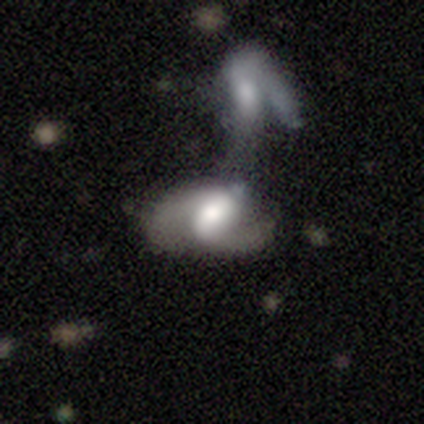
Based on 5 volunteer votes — A featured or disk galaxy (80%) with a weak bar (50%), 2 (100%) loose (100%) spiral arms (75%) and a dominant central bulge (25%, tied with large, moderate and small).

Vote fractions:
- Smooth or featured? featured or disk: 80% / smooth: 20% / star or artifact: 0%
- Edge-on disk? no: 100% / yes: 0%
- Bar? weak: 50% / strong: 25% / no: 25%
- Spiral arms? yes: 75% / no: 25%
- Spiral winding? loose: 100% / tight: 0% / medium: 0%
- Spiral arm count? 2: 100% / 1: 0% / 3: 0% / 4: 0% / more than 4: 0% / can't tell: 0%
- Bulge size? dominant: 25% (tied) / large: 25% (tied) / moderate: 25% (tied) / small: 25% (tied) / none: 0%
- Merging? merger: 100% / none: 0% / minor disturbance: 0% / major disturbance: 0%